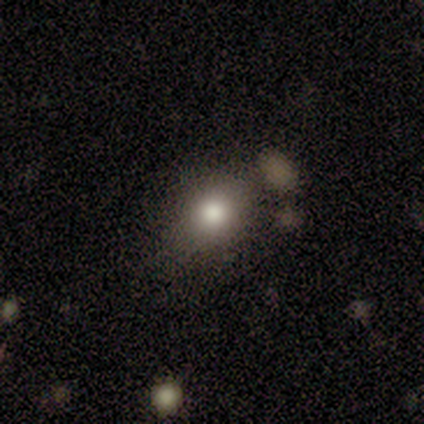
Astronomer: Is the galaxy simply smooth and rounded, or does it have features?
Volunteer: smooth — 50%, tied with star or artifact at 50%.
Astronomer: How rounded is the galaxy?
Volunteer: in between — 100%.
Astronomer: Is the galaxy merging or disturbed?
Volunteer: none — 100%.